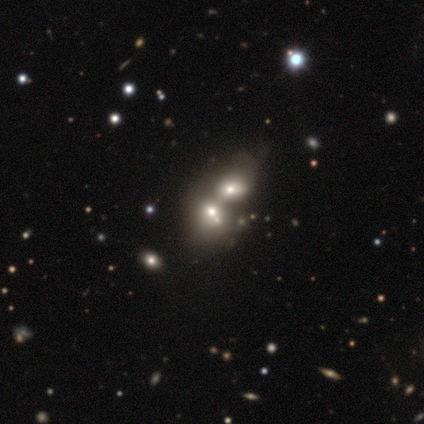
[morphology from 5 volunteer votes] This appears to be a smooth galaxy with no disk features (80%) that is round (75%). Merging: merger (75%).